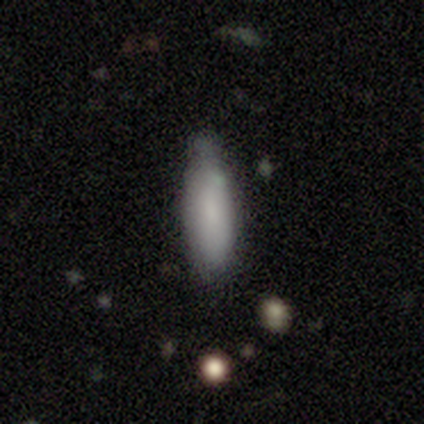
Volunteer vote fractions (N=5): Morphology: type=smooth (80%); roundness=cigar-shaped (75%); merging=none (50%, tied with minor disturbance).